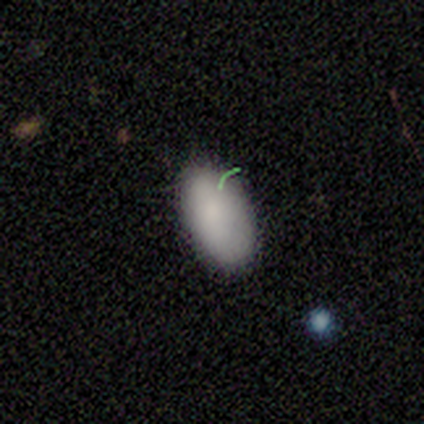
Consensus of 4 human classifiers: Overall: smooth (75%). How rounded: in between (100%). Merging: none (75%).